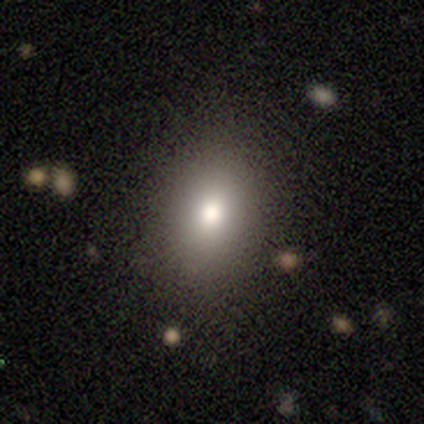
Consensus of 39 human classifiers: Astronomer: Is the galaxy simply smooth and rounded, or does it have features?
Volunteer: smooth — 62%.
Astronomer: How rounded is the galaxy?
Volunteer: in between — 67%.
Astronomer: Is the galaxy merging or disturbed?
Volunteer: none — 88%.